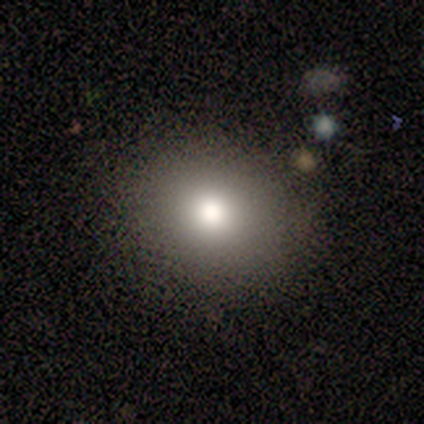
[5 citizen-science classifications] A smooth galaxy with no disk features (80%) that is round (75%). Merging: none (100%).